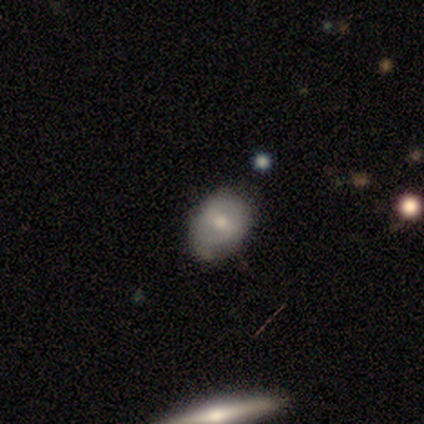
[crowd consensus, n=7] smooth-or-featured: featured or disk: 57% | smooth: 43% | star or artifact: 0%
  disk-edge-on: no: 100% | yes: 0%
    bar: weak: 50% (tied) | no: 50% (tied) | strong: 0%
    has-spiral-arms: yes: 50% (tied) | no: 50% (tied)
      spiral-winding: medium: 100% | tight: 0% | loose: 0%
      spiral-arm-count: 2: 100% | 1: 0% | 3: 0% | 4: 0% | more than 4: 0% | can't tell: 0%
    bulge-size: moderate: 50% (tied) | small: 50% (tied) | dominant: 0% | large: 0% | none: 0%
  merging: none: 71% | minor disturbance: 29% | major disturbance: 0% | merger: 0%